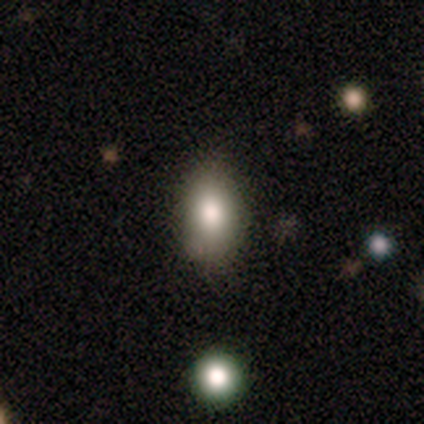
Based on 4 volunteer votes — smooth_or_featured: smooth (p=0.75) [alt: featured or disk p=0.25]
how_rounded: in between (p=0.67) [alt: cigar-shaped p=0.33]
merging: none (p=0.75) [alt: minor disturbance p=0.25]